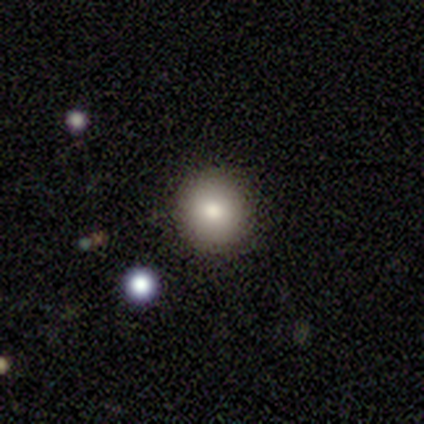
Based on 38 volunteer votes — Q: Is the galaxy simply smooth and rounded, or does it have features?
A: smooth — 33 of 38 (87%).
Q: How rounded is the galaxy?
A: round — 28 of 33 (85%).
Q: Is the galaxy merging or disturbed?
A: none — 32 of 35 (91%).